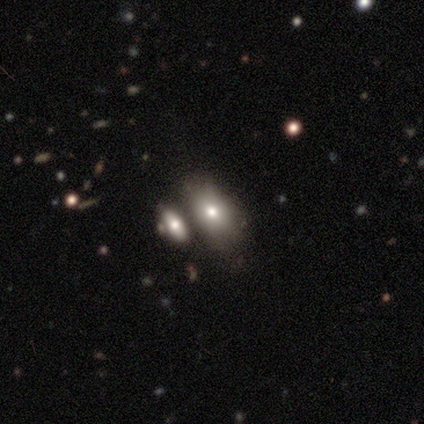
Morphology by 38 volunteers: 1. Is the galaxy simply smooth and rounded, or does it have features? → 74% smooth, 13% featured or disk, 13% star or artifact.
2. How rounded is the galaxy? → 86% in between, 14% round, 0% cigar-shaped.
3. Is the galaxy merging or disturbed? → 48% none, 39% merger, 12% minor disturbance, 0% major disturbance.